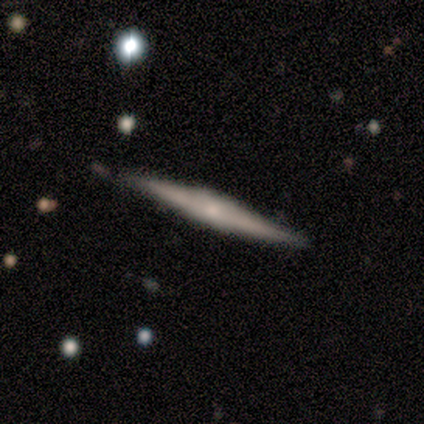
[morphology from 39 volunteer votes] A featured or disk galaxy (77%) viewed edge-on (100%) with a rounded central bulge (50%).

Vote fractions:
- Smooth or featured? featured or disk: 77% / smooth: 18% / star or artifact: 5%
- Edge-on disk? yes: 100% / no: 0%
- Edge-on bulge? rounded: 50% / boxy: 33% / none: 17%
- Merging? none: 84% / minor disturbance: 16% / major disturbance: 0% / merger: 0%